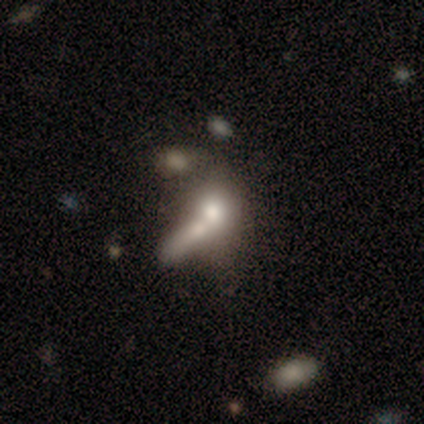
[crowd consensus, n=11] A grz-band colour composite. It shows a smooth galaxy with no disk features (82%) that is round (44%, tied with in between). Merging: merger (73%).